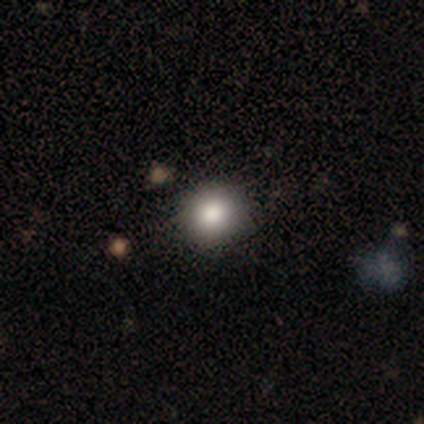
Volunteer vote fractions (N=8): smooth-or-featured: smooth: 75% | star or artifact: 25% | featured or disk: 0%
  how-rounded: round: 100% | in between: 0% | cigar-shaped: 0%
  merging: none: 100% | minor disturbance: 0% | major disturbance: 0% | merger: 0%